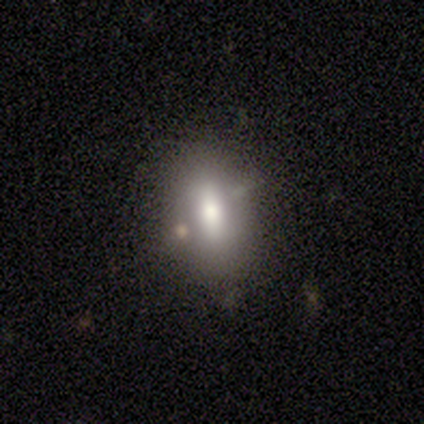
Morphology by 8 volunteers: Smooth or featured? 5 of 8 (62%) said smooth. How rounded? 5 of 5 (100%) said in between. Merging? 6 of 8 (75%) said none.